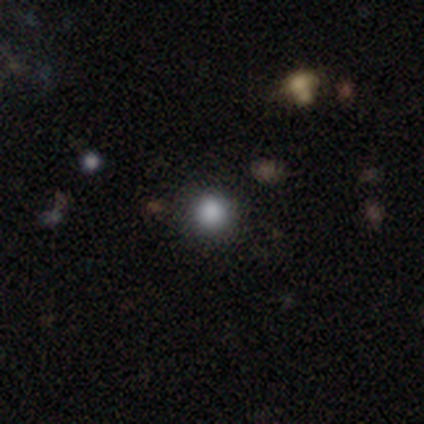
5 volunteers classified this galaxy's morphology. This is likely a smooth galaxy (60%). How rounded: clearly round (100%). Merging: clearly none (100%).